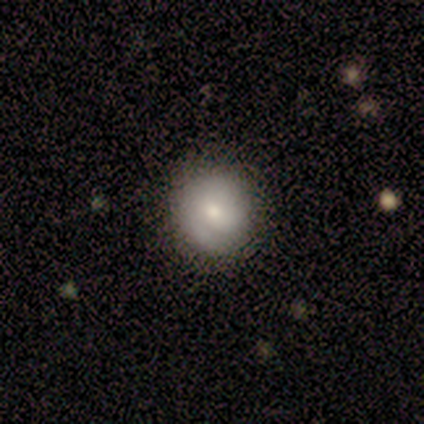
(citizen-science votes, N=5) Overall: featured or disk (60%; smooth 40%). Edge-on disk: no (100%). Bar: no (67%; weak 33%). Spiral arms: no (67%; yes 33%). Bulge size: moderate (33%, tied with small and none). Merging: none (60%; minor disturbance 40%).